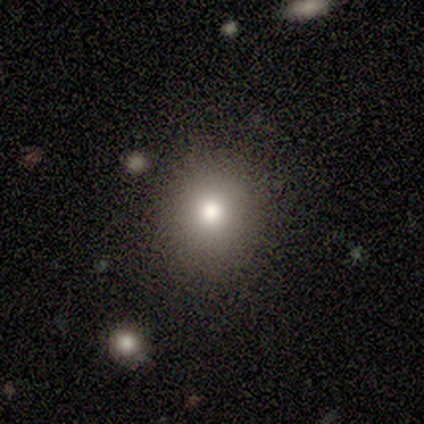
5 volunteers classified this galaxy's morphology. This is clearly a smooth galaxy (80%). How rounded: clearly round (100%). Merging: likely none (75%).